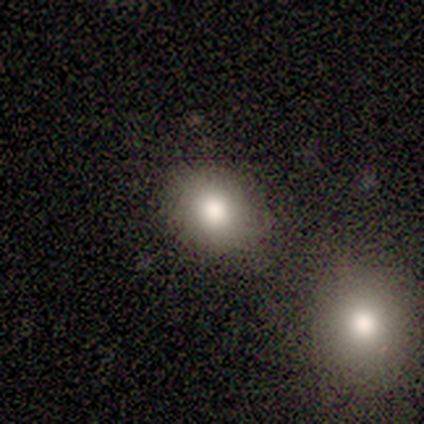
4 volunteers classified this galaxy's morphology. This is clearly a smooth galaxy (100%). How rounded: likely round (75%). Merging: likely none (75%).